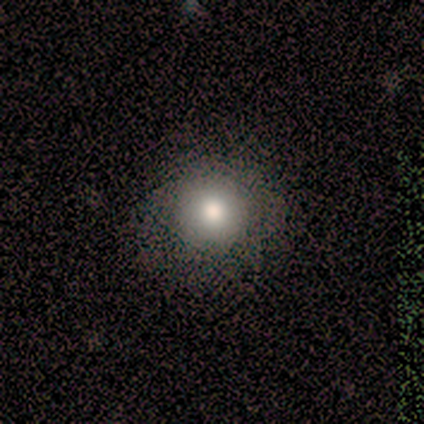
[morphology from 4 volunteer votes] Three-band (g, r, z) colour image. It shows a smooth galaxy with no disk features (75%) that is round (100%). Merging: none (75%).